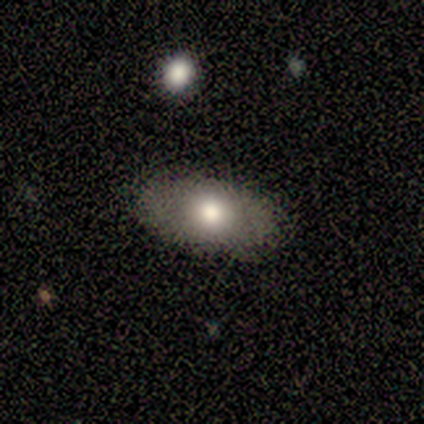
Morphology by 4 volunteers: A smooth galaxy with no disk features (75%) that is in between round and cigar-shaped (100%). Merging: none (100%).